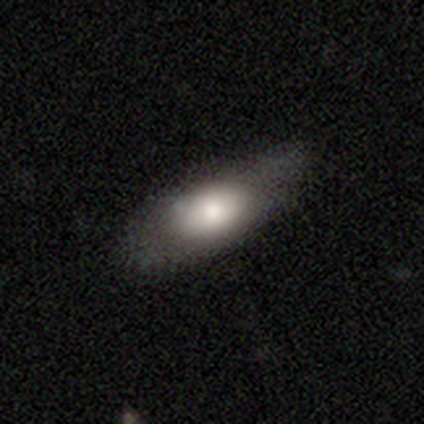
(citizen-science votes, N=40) A smooth galaxy with no disk features (72%) that is in between round and cigar-shaped (86%).

Vote fractions:
- Smooth or featured? smooth: 72% / featured or disk: 18% / star or artifact: 10%
- How rounded? in between: 86% / cigar-shaped: 10% / round: 3%
- Merging? none: 69% / minor disturbance: 17% / major disturbance: 14% / merger: 0%